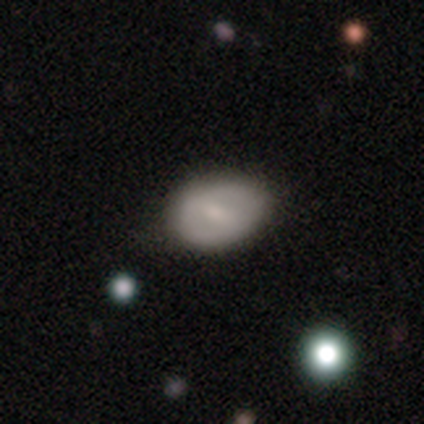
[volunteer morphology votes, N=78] Overall: smooth (55%; featured or disk 42%). How rounded: in between (74%). Merging: none (38%; minor disturbance 9%).